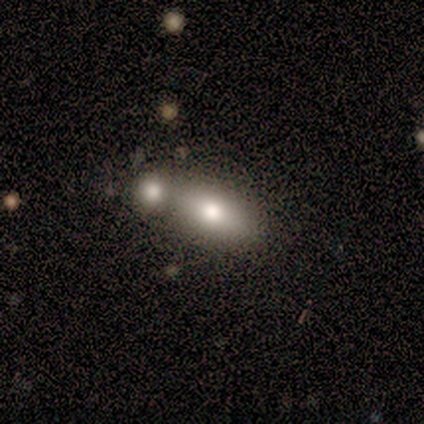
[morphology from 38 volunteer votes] Overall: smooth (74%). How rounded: in between (82%). Merging: merger (60%; none 31%).